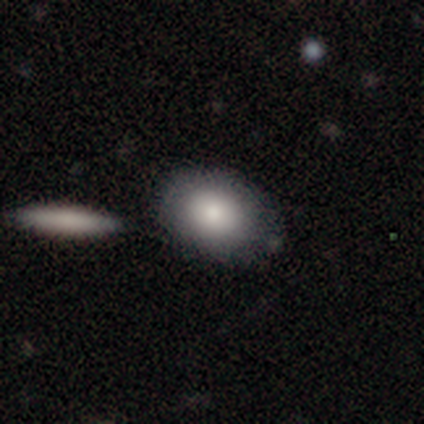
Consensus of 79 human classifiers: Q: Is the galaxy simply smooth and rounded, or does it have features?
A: smooth — 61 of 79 (77%).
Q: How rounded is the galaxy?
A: in between — 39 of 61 (64%).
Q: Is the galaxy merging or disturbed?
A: none — 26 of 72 (36%).